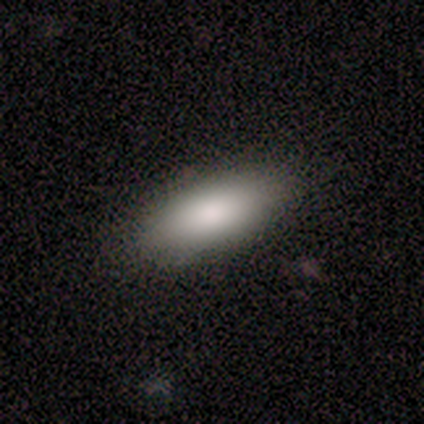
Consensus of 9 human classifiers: A smooth galaxy with no disk features (78%) that is in between round and cigar-shaped (43%). Merging: none (100%).